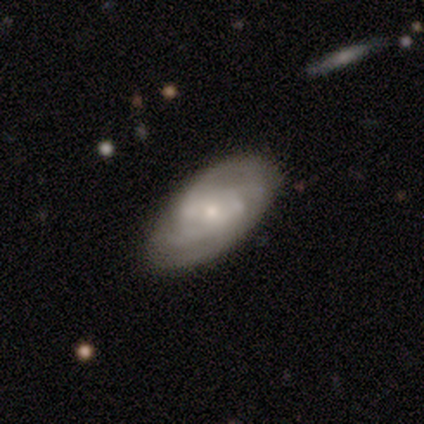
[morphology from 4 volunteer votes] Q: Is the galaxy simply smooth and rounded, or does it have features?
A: featured or disk — 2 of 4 (50%).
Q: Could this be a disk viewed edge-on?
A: no — 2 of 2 (100%).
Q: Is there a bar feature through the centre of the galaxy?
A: weak — 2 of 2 (100%).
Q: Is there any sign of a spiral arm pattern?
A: yes — 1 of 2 (50%, tied with no).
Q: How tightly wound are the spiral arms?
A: tight — 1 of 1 (100%).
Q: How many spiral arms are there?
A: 4 — 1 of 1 (100%).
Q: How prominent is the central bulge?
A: moderate — 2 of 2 (100%).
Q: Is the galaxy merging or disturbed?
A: none — 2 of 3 (67%).